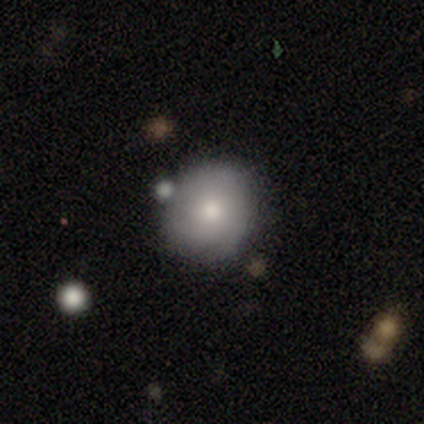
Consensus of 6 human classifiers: A smooth galaxy with no disk features (83%) that is round (60%). Merging: none (67%).